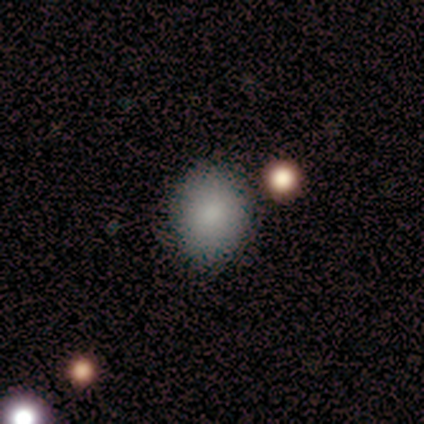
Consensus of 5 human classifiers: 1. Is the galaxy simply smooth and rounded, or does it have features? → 100% smooth, 0% featured or disk, 0% star or artifact.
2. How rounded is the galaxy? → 80% round, 20% in between, 0% cigar-shaped.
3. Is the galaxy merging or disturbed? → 100% none, 0% minor disturbance, 0% major disturbance, 0% merger.